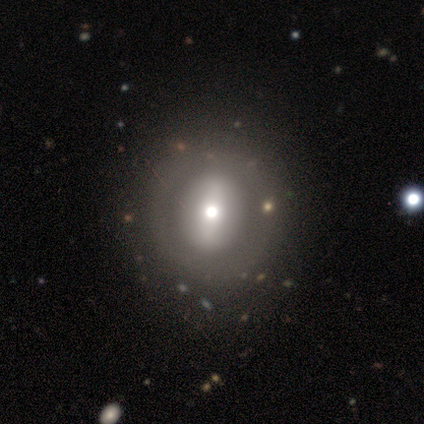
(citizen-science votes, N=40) Smooth or featured? featured or disk (60%)
Edge-on disk? no (92%)
Bar? strong (55%)
Spiral arms? no (95%)
Bulge size? moderate (77%)
Merging? none (72%)